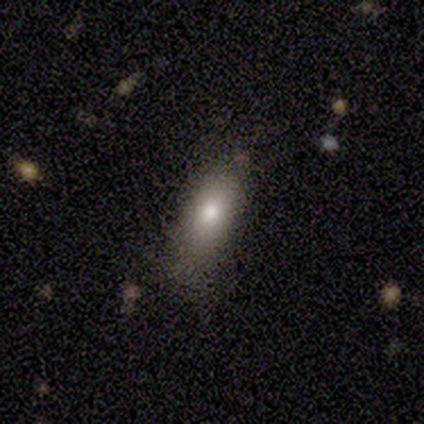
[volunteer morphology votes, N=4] Q: Smooth or featured?
A: smooth (100%)
Q: How rounded?
A: in between (100%)
Q: Merging?
A: none (100%)